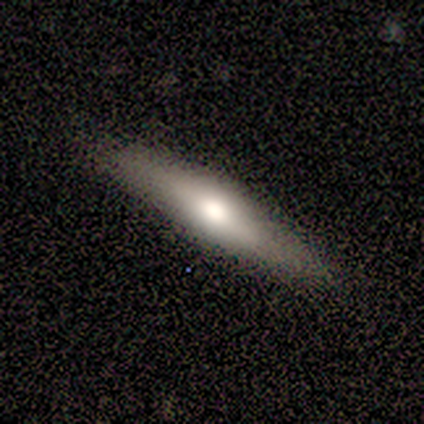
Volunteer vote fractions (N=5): Overall: featured or disk (100%). Edge-on disk: yes (80%). Edge-on bulge: rounded (100%). Merging: none (80%).